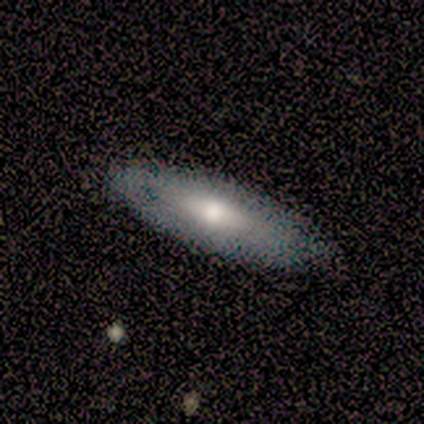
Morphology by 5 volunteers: type=featured or disk (80%); edge-on=no (75%); bar=no (67%); spiral arms=no (67%); bulge=moderate (67%); merging=none (80%).